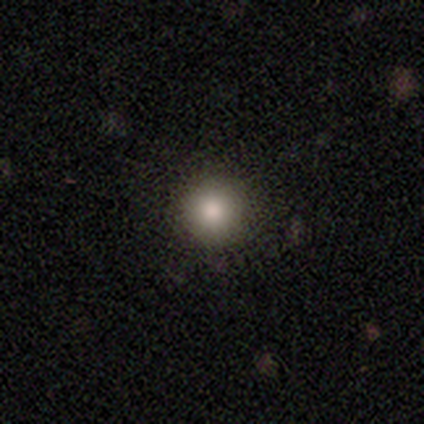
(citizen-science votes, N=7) Smooth or featured? 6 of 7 (86%) said smooth. How rounded? 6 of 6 (100%) said round. Merging? 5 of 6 (83%) said none.